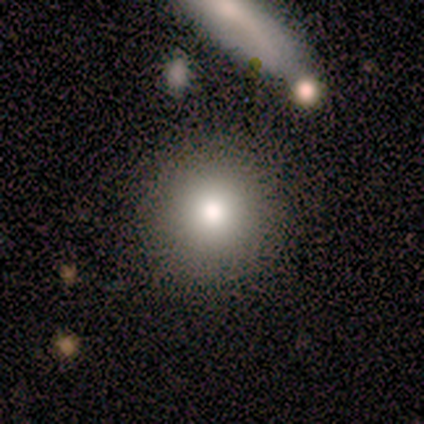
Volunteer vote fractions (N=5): Smooth or featured? 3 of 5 (60%) said smooth. How rounded? 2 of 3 (67%) said round. Merging? 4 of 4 (100%) said none.